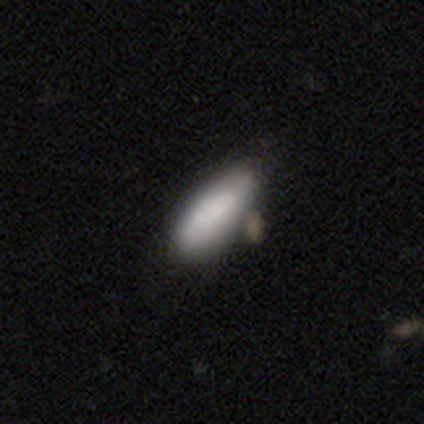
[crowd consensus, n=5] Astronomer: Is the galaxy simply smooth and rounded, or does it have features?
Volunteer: smooth — 100%.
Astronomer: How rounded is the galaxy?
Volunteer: in between — 60% (runner-up: cigar-shaped, 40%).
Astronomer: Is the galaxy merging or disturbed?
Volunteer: none — 40%, tied with minor disturbance at 40%.